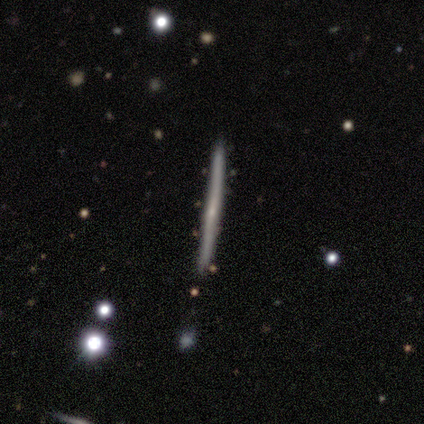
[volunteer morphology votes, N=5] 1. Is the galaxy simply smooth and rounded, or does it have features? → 100% featured or disk, 0% smooth, 0% star or artifact.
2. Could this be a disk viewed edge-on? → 100% yes, 0% no.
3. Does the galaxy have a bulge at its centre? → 80% none, 20% rounded, 0% boxy.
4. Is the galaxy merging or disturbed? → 100% none, 0% minor disturbance, 0% major disturbance, 0% merger.